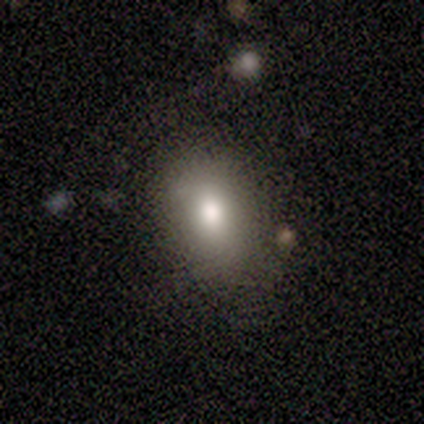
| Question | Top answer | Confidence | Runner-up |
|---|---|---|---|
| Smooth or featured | smooth | 60% | featured or disk (40%) |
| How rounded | in between | 67% | cigar-shaped (33%) |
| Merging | none | 80% | minor disturbance (20%) |